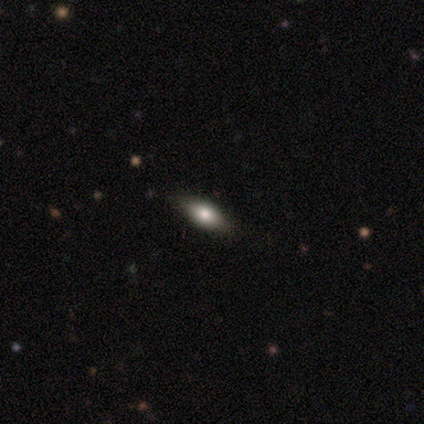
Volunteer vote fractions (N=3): A smooth galaxy with no disk features (67%) that is in between round and cigar-shaped (50%, tied with cigar-shaped).

Vote fractions:
- Smooth or featured? smooth: 67% / star or artifact: 33% / featured or disk: 0%
- How rounded? in between: 50% (tied) / cigar-shaped: 50% (tied) / round: 0%
- Merging? none: 50% (tied) / minor disturbance: 50% (tied) / major disturbance: 0% / merger: 0%